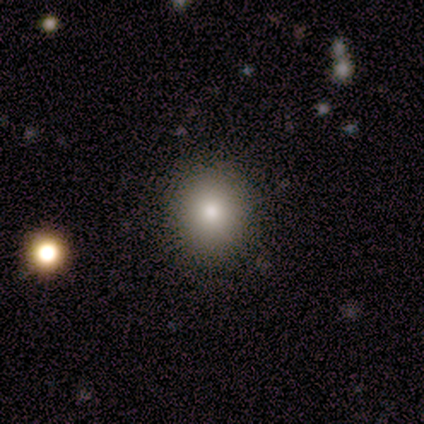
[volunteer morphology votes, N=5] smooth_or_featured: smooth (p=0.60) [alt: featured or disk p=0.40]
how_rounded: round (p=0.67) [alt: in between p=0.33]
merging: none (p=0.80) [alt: minor disturbance p=0.20]